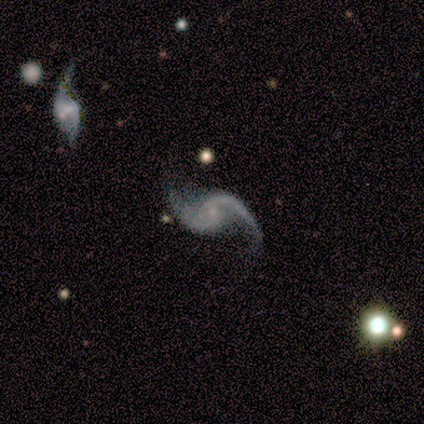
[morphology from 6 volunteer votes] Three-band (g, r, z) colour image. It shows a featured or disk galaxy (100%) with no bar (83%), 2 (100%) loose (83%) spiral arms (100%) and a small central bulge (100%). Merging: none (50%).